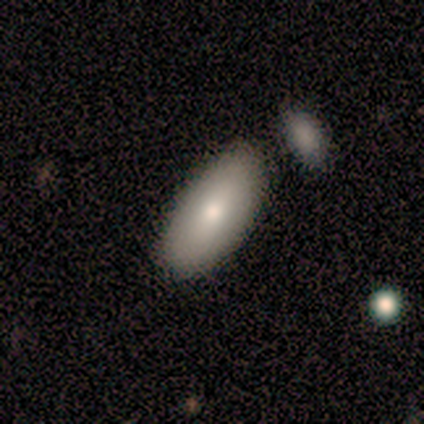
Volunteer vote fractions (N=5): smooth 60%, featured or disk 40%, star or artifact 0%. Down the decision tree: how rounded — in between (100%); merging — none (80%).